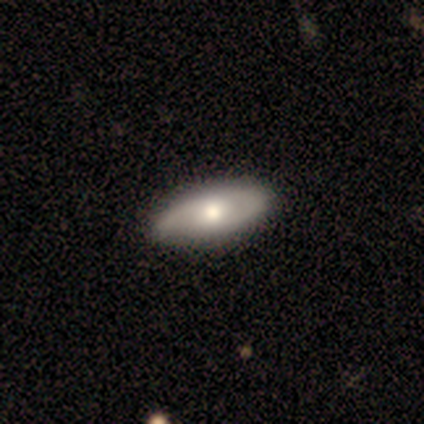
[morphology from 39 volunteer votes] Volunteers were most divided on "smooth or featured": featured or disk: 56%, smooth: 41%, star or artifact: 3%. More confident: bar — no (81%); bulge size — moderate (81%); edge-on disk — no (73%); spiral winding — medium (70%); spiral arm count — 2 (70%); merging — none (68%); spiral arms — yes (62%).